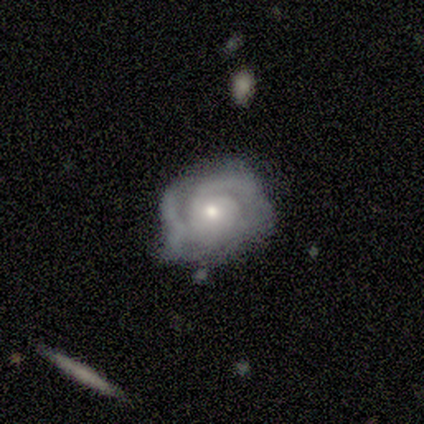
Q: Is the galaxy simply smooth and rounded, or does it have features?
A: featured or disk — 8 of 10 (80%).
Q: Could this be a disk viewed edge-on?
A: no — 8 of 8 (100%).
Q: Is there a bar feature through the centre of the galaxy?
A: no — 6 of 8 (75%).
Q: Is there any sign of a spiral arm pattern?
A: yes — 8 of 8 (100%).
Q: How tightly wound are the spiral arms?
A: tight — 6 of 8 (75%).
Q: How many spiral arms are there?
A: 2 — 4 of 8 (50%).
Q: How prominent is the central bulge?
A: small — 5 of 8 (62%).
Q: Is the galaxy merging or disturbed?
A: minor disturbance — 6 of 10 (60%).